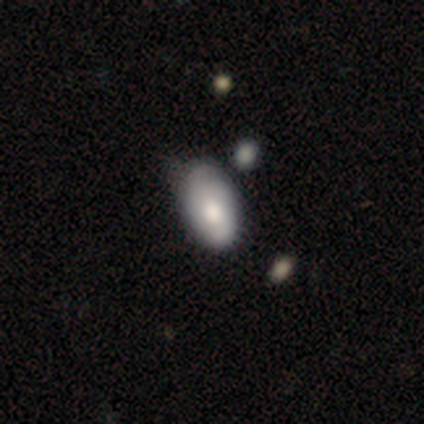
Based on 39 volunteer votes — Smooth or featured?
  - smooth: 51% *
  - featured or disk: 44%
  - star or artifact: 5%
How rounded?
  - in between: 100% *
  - round: 0%
  - cigar-shaped: 0%
Merging?
  - none: 35% *
  - minor disturbance: 32%
  - merger: 11%
  - major disturbance: 3%